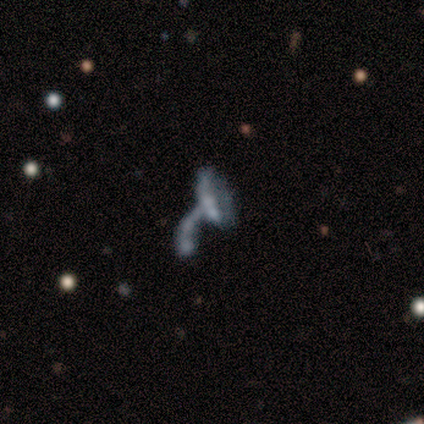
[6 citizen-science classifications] A featured or disk galaxy (83%) with no bar (100%), no spiral arms (60%) and no central bulge (80%). Merging: merger (50%).